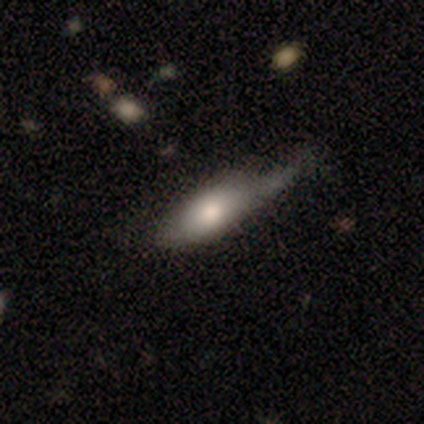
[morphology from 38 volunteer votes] Smooth or featured? 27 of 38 (71%) said smooth. How rounded? 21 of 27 (78%) said in between. Merging? 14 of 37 (38%) said minor disturbance.